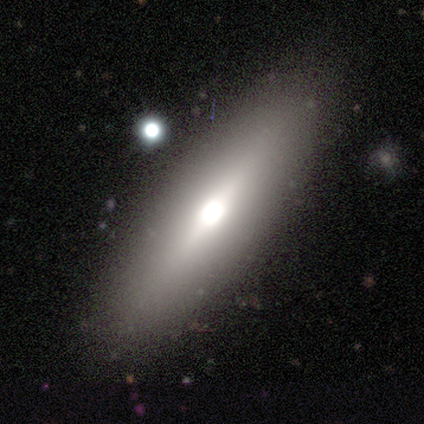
A smooth galaxy with no disk features (58%) that is cigar-shaped (57%).

Vote fractions:
- Smooth or featured? smooth: 58% / featured or disk: 42% / star or artifact: 0%
- How rounded? cigar-shaped: 57% / in between: 43% / round: 0%
- Merging? none: 75% / minor disturbance: 17% / merger: 8% / major disturbance: 0%